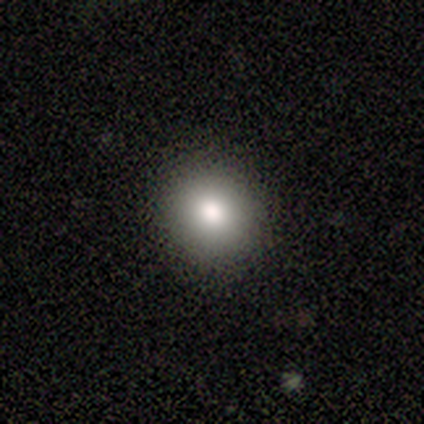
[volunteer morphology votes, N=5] smooth-or-featured: smooth: 100% | featured or disk: 0% | star or artifact: 0%
  how-rounded: round: 80% | in between: 20% | cigar-shaped: 0%
  merging: none: 100% | minor disturbance: 0% | major disturbance: 0% | merger: 0%